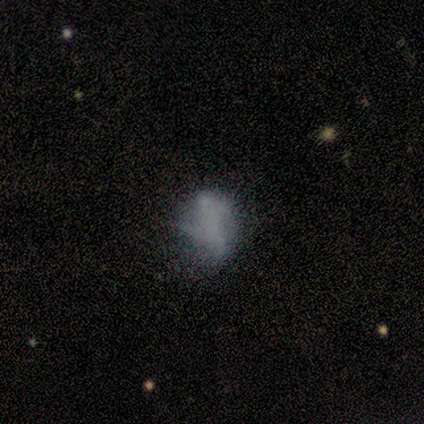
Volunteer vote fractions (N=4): This is clearly a smooth galaxy (100%). How rounded: possibly round (50%, tied with in between). Merging: likely none (75%).